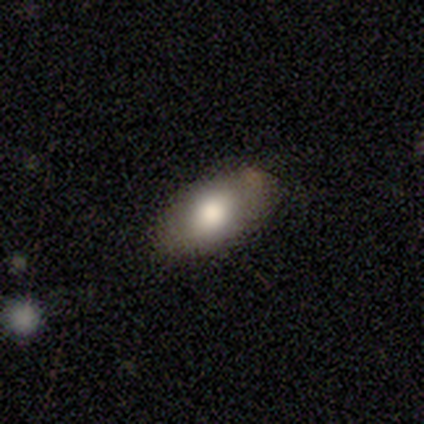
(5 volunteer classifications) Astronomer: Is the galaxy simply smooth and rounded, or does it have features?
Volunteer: smooth — 80%.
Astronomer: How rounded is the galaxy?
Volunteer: in between — 75%.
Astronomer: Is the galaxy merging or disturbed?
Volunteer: none — 100%.